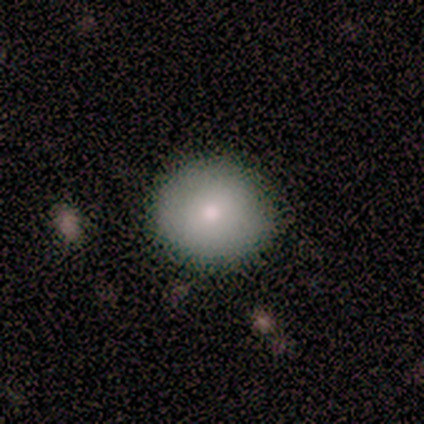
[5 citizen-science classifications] Smooth or featured?
  - smooth: 80% *
  - featured or disk: 20%
  - star or artifact: 0%
How rounded?
  - round: 100% *
  - in between: 0%
  - cigar-shaped: 0%
Merging?
  - none: 100% *
  - minor disturbance: 0%
  - major disturbance: 0%
  - merger: 0%